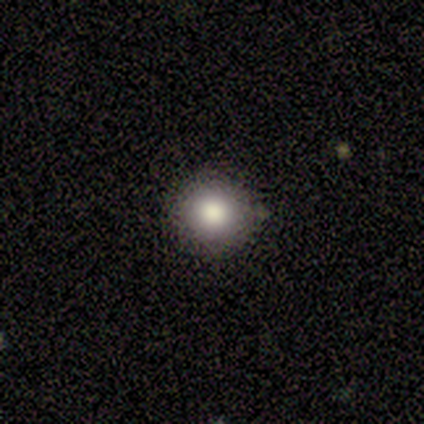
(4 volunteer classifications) Volunteers were most divided on "merging": none: 75%, merger: 25%, minor disturbance: 0%, major disturbance: 0%. More confident: smooth or featured — smooth (100%); how rounded — round (100%).